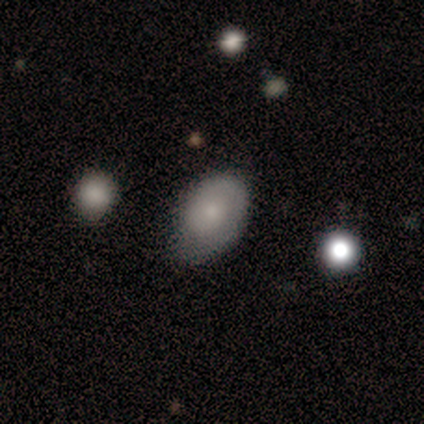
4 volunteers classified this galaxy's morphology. Volunteers were most divided on "how rounded": in between: 67%, round: 33%, cigar-shaped: 0%. More confident: smooth or featured — smooth (75%); merging — none (75%).